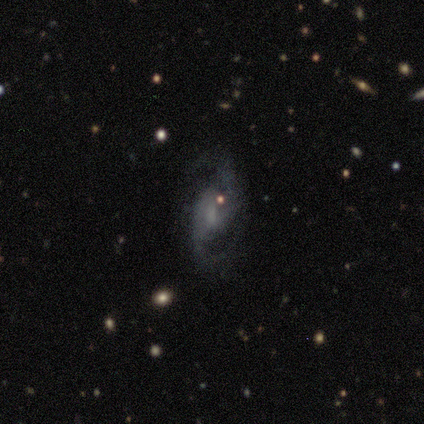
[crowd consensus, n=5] smooth_or_featured: featured or disk (p=1.00)
disk_edge_on: no (p=1.00)
bar: strong (p=0.40) [tied with: no p=0.40]
has_spiral_arms: yes (p=1.00)
spiral_winding: medium (p=0.60) [alt: tight p=0.20]
spiral_arm_count: 2 (p=1.00)
bulge_size: moderate (p=0.60) [alt: small p=0.40]
merging: none (p=1.00)